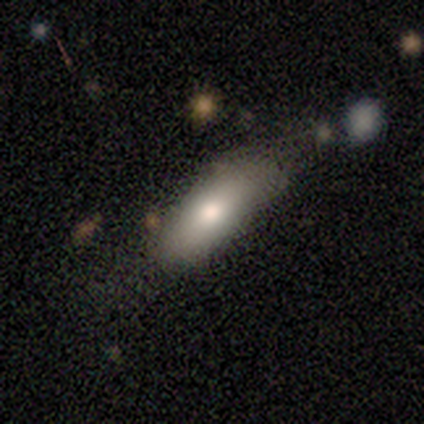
A smooth galaxy with no disk features (100%) that is in between round and cigar-shaped (80%). Merging: none (60%).